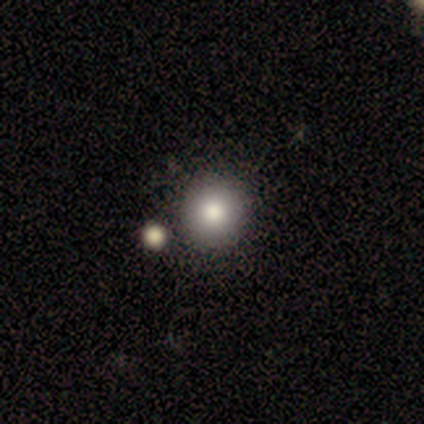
Q: Smooth or featured?
A: smooth (100%)
Q: How rounded?
A: round (100%)
Q: Merging?
A: none (100%)